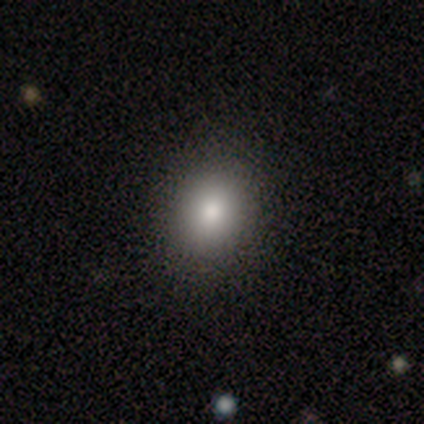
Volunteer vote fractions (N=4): Smooth or featured? 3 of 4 (75%) said smooth. How rounded? 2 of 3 (67%) said in between. Merging? 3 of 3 (100%) said none.